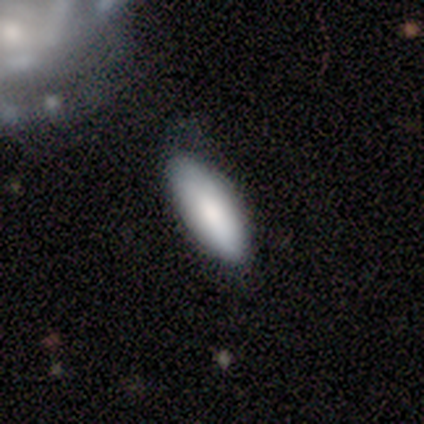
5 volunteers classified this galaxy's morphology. smooth_or_featured: smooth (p=1.00)
how_rounded: in between (p=1.00)
merging: none (p=1.00)